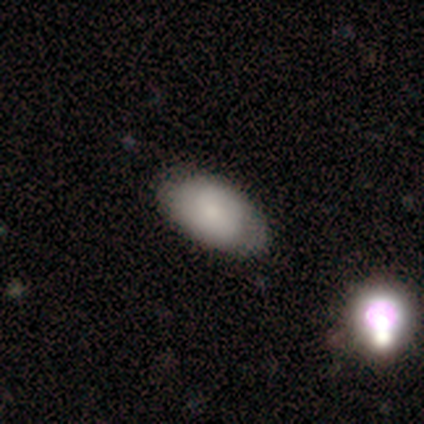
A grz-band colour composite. It shows a smooth galaxy with no disk features (75%) that is in between round and cigar-shaped (100%). Merging: none (100%).